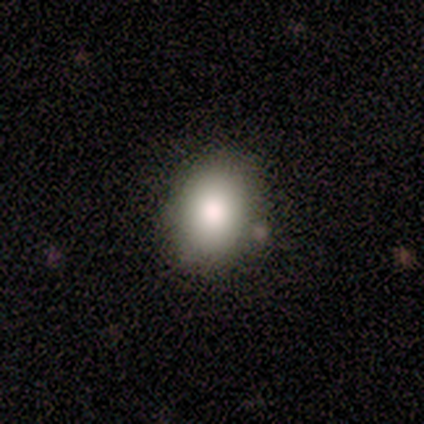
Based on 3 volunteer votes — A smooth galaxy with no disk features (100%) that is in between round and cigar-shaped (67%).

Vote fractions:
- Smooth or featured? smooth: 100% / featured or disk: 0% / star or artifact: 0%
- How rounded? in between: 67% / round: 33% / cigar-shaped: 0%
- Merging? none: 67% / minor disturbance: 33% / major disturbance: 0% / merger: 0%